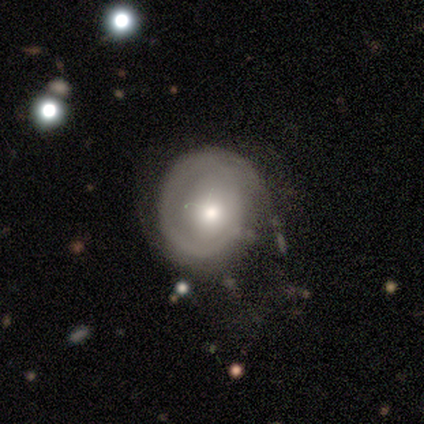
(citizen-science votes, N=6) Smooth or featured? featured or disk (67%)
Edge-on disk? no (100%)
Bar? no (100%)
Spiral arms? yes (100%)
Spiral winding? tight (100%)
Spiral arm count? 2 (75%)
Bulge size? small (75%)
Merging? none (67%)